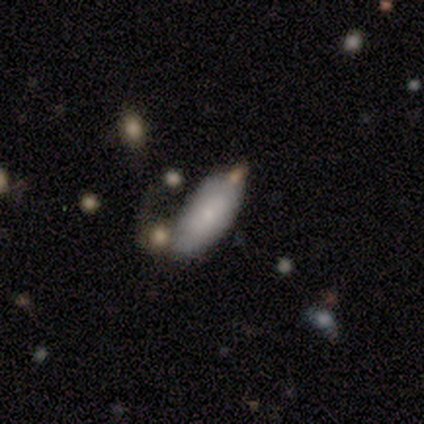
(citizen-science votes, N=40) smooth-or-featured: smooth: 82% | featured or disk: 10% | star or artifact: 8%
  how-rounded: in between: 88% | cigar-shaped: 9% | round: 3%
  merging: none: 65% | merger: 16% | minor disturbance: 11% | major disturbance: 8%